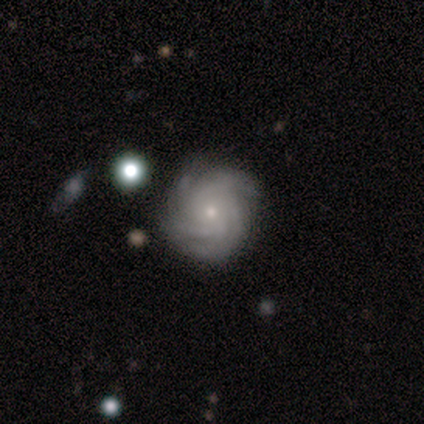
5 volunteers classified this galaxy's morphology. Volunteers were most divided on "spiral winding": tight: 60%, medium: 40%, loose: 0%. More confident: smooth or featured — featured or disk (100%); edge-on disk — no (100%); bar — no (100%); spiral arms — yes (100%); bulge size — small (80%); merging — none (80%); spiral arm count — more than 4 (60%).